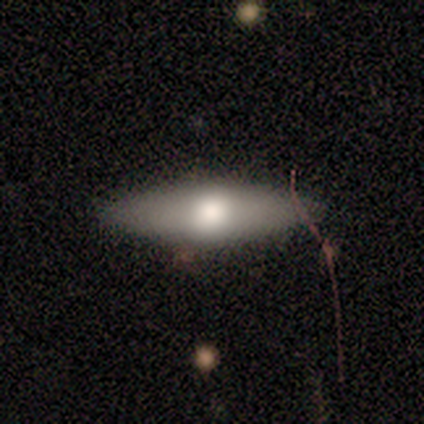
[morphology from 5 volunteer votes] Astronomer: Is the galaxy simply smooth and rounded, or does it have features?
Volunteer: smooth — 80%.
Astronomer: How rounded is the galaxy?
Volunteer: cigar-shaped — 75%.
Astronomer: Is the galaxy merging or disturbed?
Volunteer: none — 100%.